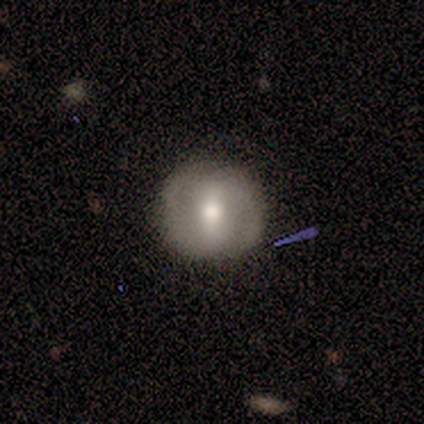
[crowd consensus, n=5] Overall: featured or disk (60%; smooth 40%). Edge-on disk: no (100%). Bar: weak (67%; strong 33%). Spiral arms: yes (67%; no 33%). Spiral arm count: 2 (100%). Spiral winding: tight (100%). Bulge size: moderate (67%; large 33%). Merging: none (80%).